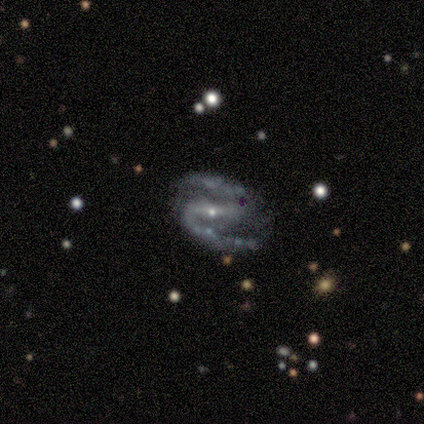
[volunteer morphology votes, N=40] type=featured or disk (98%); edge-on=no (97%); bar=strong (63%); spiral arms=yes (97%); winding=medium (65%); arm count=2 (100%); bulge=small (89%); merging=none (79%).